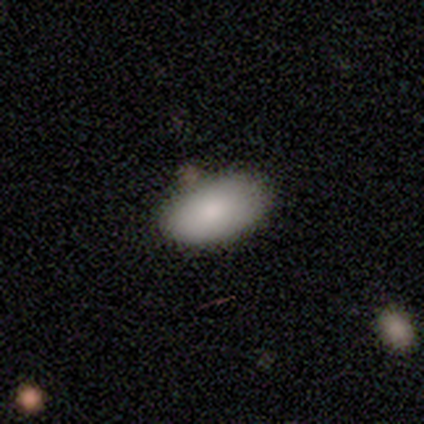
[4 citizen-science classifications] This appears to be a smooth galaxy with no disk features (75%) that is in between round and cigar-shaped (100%). Merging: none (75%).